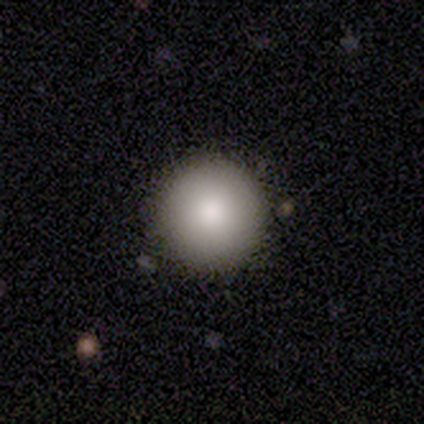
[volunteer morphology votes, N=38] A smooth galaxy with no disk features (89%) that is round (97%).

Vote fractions:
- Smooth or featured? smooth: 89% / featured or disk: 8% / star or artifact: 3%
- How rounded? round: 97% / in between: 3% / cigar-shaped: 0%
- Merging? none: 95% / minor disturbance: 3% / merger: 3% / major disturbance: 0%